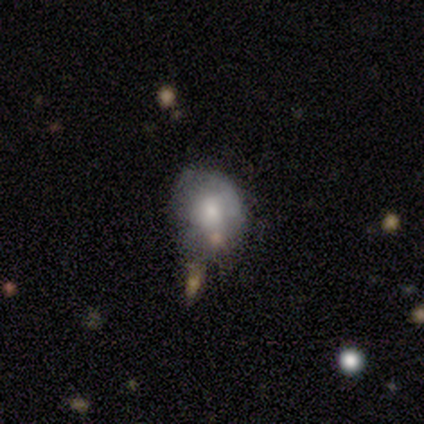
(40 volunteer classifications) Morphology: type=smooth (68%); roundness=round (56%); merging=none (34%).